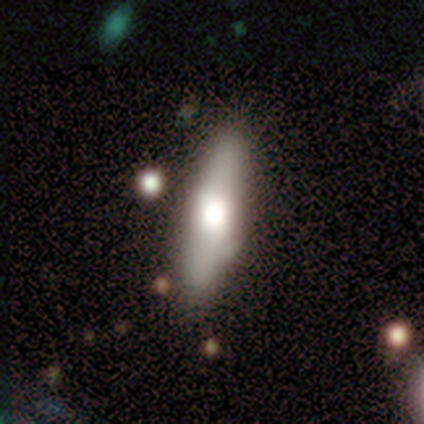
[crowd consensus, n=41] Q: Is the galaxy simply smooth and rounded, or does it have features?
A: smooth — 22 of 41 (54%).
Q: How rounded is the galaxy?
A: in between — 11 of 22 (50%, tied with cigar-shaped).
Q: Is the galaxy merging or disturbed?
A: none — 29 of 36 (81%).